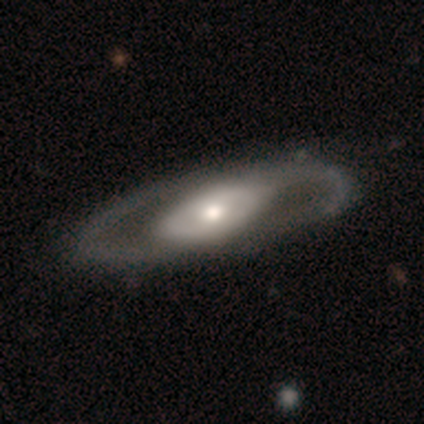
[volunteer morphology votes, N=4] This appears to be a featured or disk galaxy (75%) with no bar (100%), 2 (100%) tight (50%, tied with medium) spiral arms (67%) and a large central bulge (33%, tied with moderate and small). Merging: none (67%).